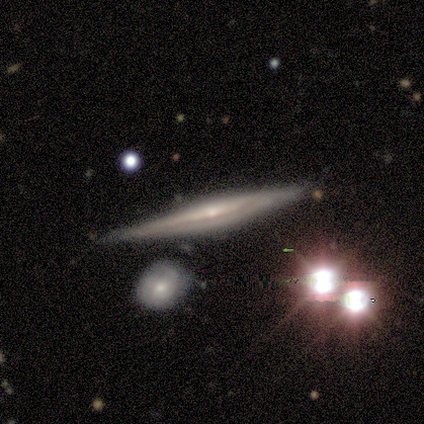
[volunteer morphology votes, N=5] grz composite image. It shows a featured or disk galaxy (60%) viewed edge-on (100%) with no central bulge (67%). Merging: none (60%).